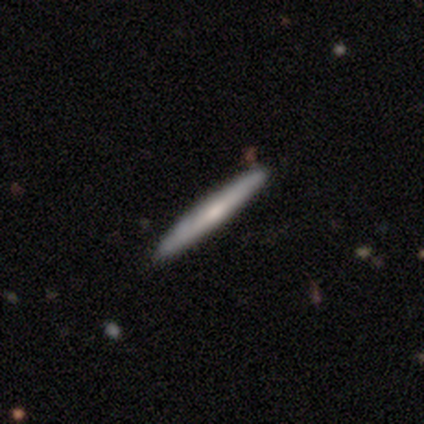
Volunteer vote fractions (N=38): smooth-or-featured: smooth: 58% | featured or disk: 34% | star or artifact: 8%
  how-rounded: cigar-shaped: 100% | round: 0% | in between: 0%
  merging: none: 97% | minor disturbance: 3% | major disturbance: 0% | merger: 0%